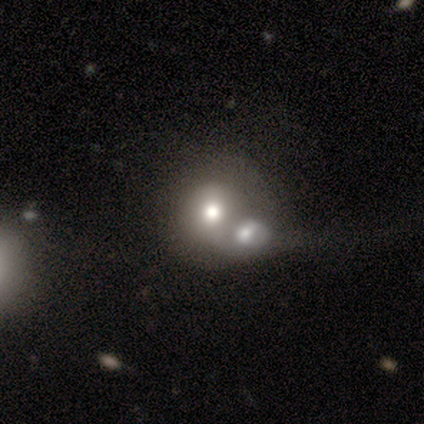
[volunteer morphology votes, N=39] This is likely a smooth galaxy (62%). How rounded: likely round (79%). Merging: likely merger (65%).